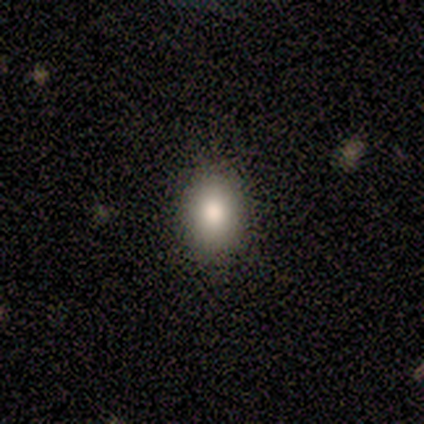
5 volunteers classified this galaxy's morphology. Smooth or featured? 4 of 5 (80%) said smooth. How rounded? 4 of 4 (100%) said in between. Merging? 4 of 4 (100%) said none.